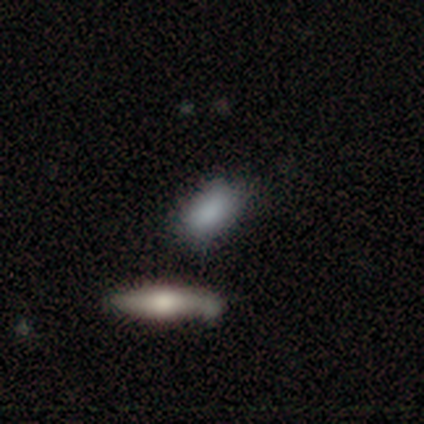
Q: Smooth or featured?
A: smooth (50%); tied with: featured or disk (50%)
Q: How rounded?
A: round (50%); tied with: in between (50%)
Q: Merging?
A: none (100%)